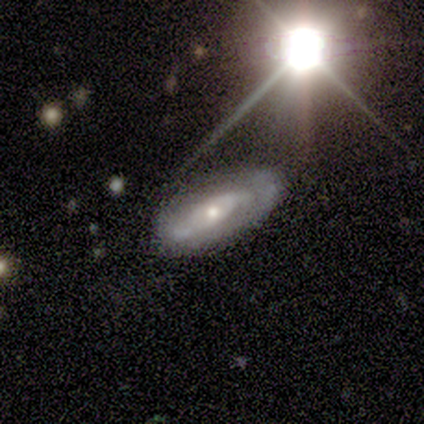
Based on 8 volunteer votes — This is likely a featured or disk galaxy (75%). It is clearly not viewed edge-on (83%). Bar: marginally weak (40%, tied with no). Spiral arm pattern: likely yes (60%). Spiral arm count: likely can't tell (67%). Spiral winding: likely medium (67%). Central bulge: clearly small (100%). Merging: possibly none (57%).